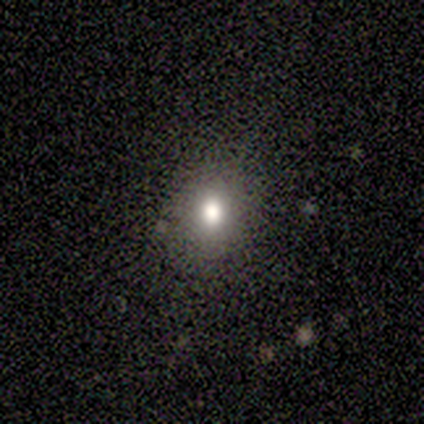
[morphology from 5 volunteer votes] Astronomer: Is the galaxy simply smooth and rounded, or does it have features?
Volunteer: smooth — 80%.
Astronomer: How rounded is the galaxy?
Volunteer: in between — 75%.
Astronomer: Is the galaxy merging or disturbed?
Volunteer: none — 100%.